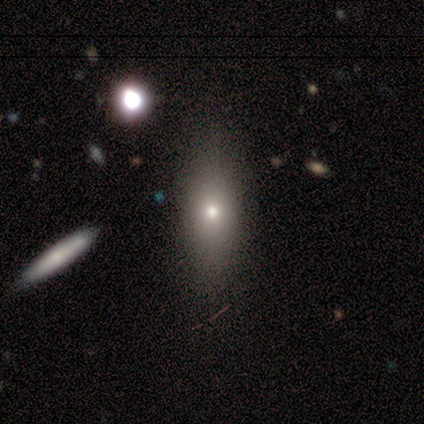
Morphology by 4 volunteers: This is possibly a smooth galaxy (50%, tied with featured or disk). How rounded: possibly in between (50%, tied with cigar-shaped). Merging: clearly none (100%).